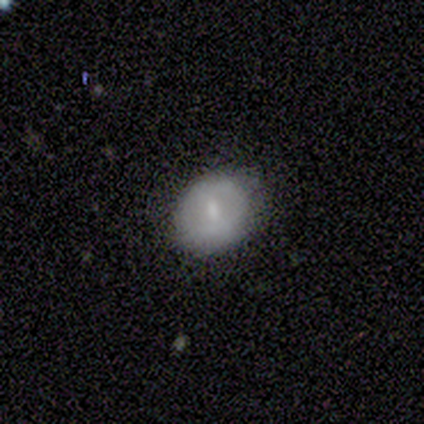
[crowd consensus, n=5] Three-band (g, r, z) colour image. It shows a featured or disk galaxy (60%) with no bar (67%), no spiral arms (67%) and a moderate central bulge (67%). Merging: none (80%).